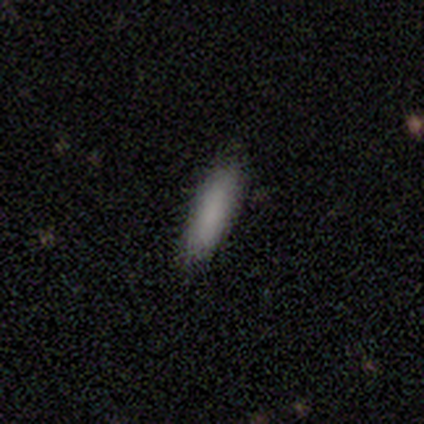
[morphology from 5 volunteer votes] type=smooth (100%); roundness=cigar-shaped (60%); merging=none (100%).